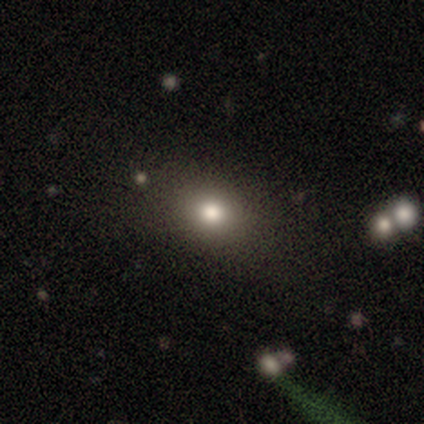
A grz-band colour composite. It shows a smooth galaxy with no disk features (80%) that is in between round and cigar-shaped (75%). Merging: major disturbance (75%).